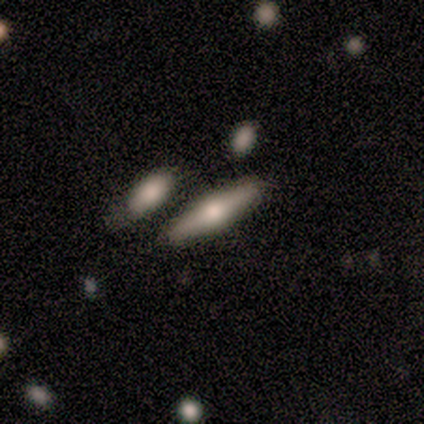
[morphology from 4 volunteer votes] smooth 75%, featured or disk 25%, star or artifact 0%. Down the decision tree: how rounded — cigar-shaped (100%); merging — none (50%, tied with minor disturbance).